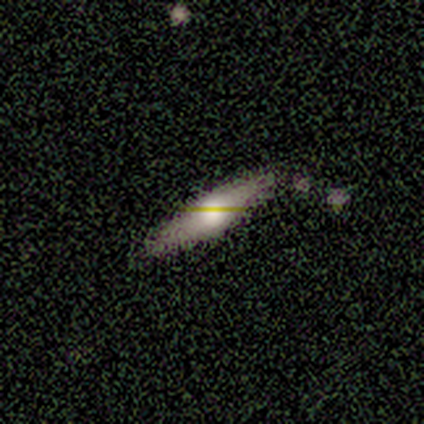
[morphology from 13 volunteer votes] A smooth galaxy with no disk features (46%, tied with featured or disk) that is cigar-shaped (67%). Merging: none (75%).